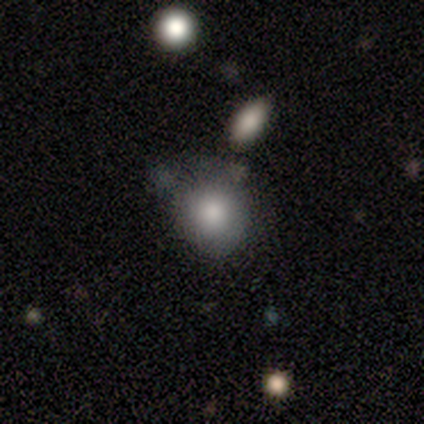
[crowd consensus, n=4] A smooth galaxy with no disk features (75%) that is round (100%).

Vote fractions:
- Smooth or featured? smooth: 75% / star or artifact: 25% / featured or disk: 0%
- How rounded? round: 100% / in between: 0% / cigar-shaped: 0%
- Merging? none: 100% / minor disturbance: 0% / major disturbance: 0% / merger: 0%